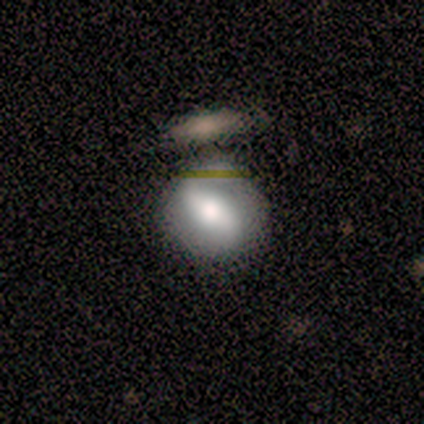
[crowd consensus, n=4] Q: Smooth or featured?
A: smooth (75%); runner-up: featured or disk (25%)
Q: How rounded?
A: round (100%)
Q: Merging?
A: none (50%); runner-up: minor disturbance (25%)